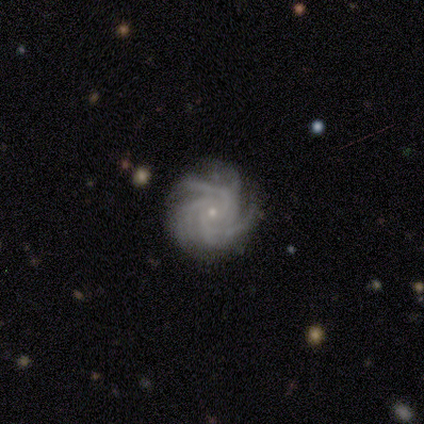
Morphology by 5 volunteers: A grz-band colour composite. It shows a featured or disk galaxy (100%) with no bar (75%), more than 4 (75%) tight (100%) spiral arms (100%) and a small central bulge (100%). Merging: none (60%).